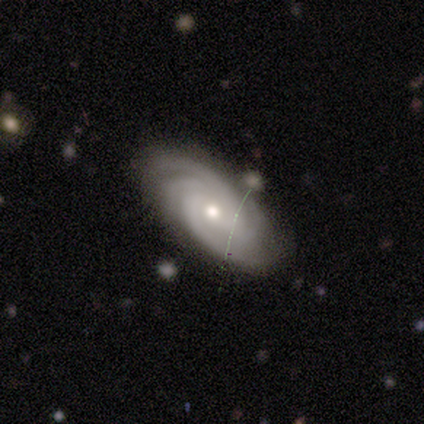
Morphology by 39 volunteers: featured or disk 95%, star or artifact 5%, smooth 0%. Down the decision tree: edge-on disk — no (100%); bar — no (92%); spiral arms — yes (100%); spiral arm count — 4 (70%); spiral winding — tight (70%); bulge size — moderate (70%); merging — none (57%).